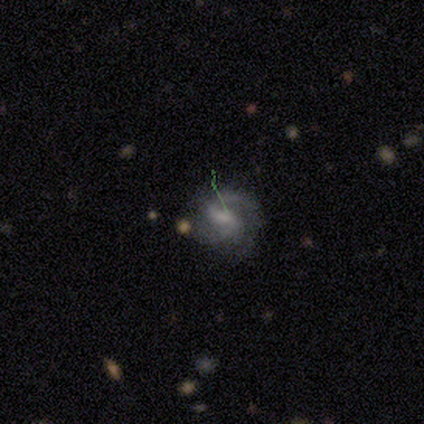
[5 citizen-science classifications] Smooth or featured? 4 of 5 (80%) said featured or disk. Edge-on disk? 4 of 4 (100%) said no. Bar? 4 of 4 (100%) said weak. Spiral arms? 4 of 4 (100%) said yes. Spiral winding? 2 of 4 (50%) said medium. Spiral arm count? 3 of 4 (75%) said 2. Bulge size? 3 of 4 (75%) said small. Merging? 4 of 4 (100%) said none.